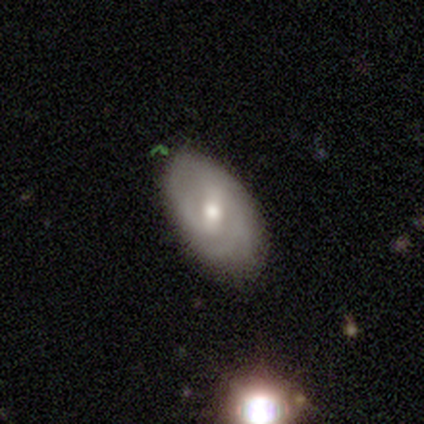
Smooth or featured? 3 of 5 (60%) said featured or disk. Edge-on disk? 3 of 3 (100%) said no. Bar? 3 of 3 (100%) said weak. Spiral arms? 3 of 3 (100%) said yes. Spiral winding? 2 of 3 (67%) said tight. Spiral arm count? 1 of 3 (33%, tied with 4 and can't tell) said 2. Bulge size? 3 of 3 (100%) said moderate. Merging? 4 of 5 (80%) said none.